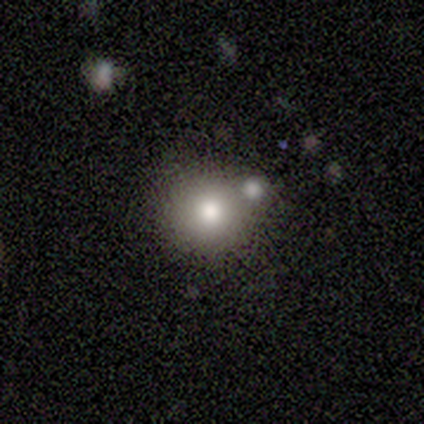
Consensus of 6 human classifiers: Volunteers were most divided on "smooth or featured" (2-way tie): smooth: 50%, featured or disk: 50%, star or artifact: 0%. More confident: how rounded — round (100%); merging — none (50%).